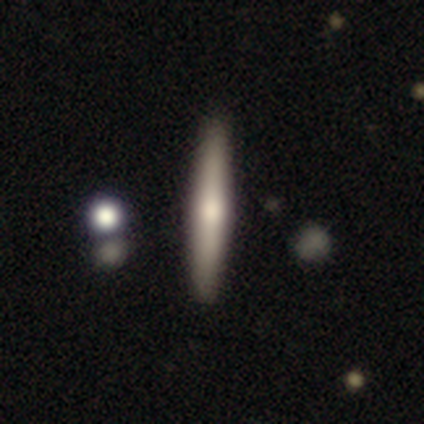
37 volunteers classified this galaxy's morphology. Overall: featured or disk (54%; smooth 41%). Edge-on disk: yes (100%). Edge-on bulge: rounded (70%; none 30%). Merging: none (94%).